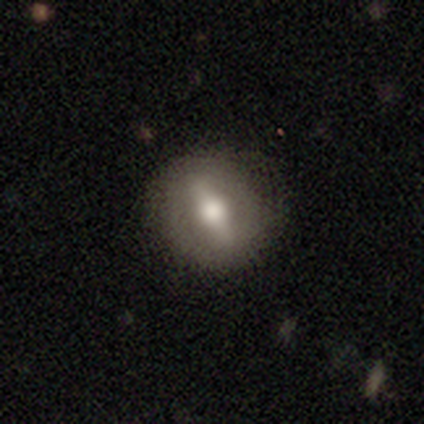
Smooth or featured?
  - featured or disk: 80% *
  - smooth: 20%
  - star or artifact: 0%
Edge-on disk?
  - no: 100% *
  - yes: 0%
Bar?
  - strong: 75% *
  - weak: 25%
  - no: 0%
Spiral arms?
  - no: 100% *
  - yes: 0%
Bulge size?
  - moderate: 75% *
  - large: 25%
  - dominant: 0%
  - small: 0%
  - none: 0%
Merging?
  - none: 100% *
  - minor disturbance: 0%
  - major disturbance: 0%
  - merger: 0%